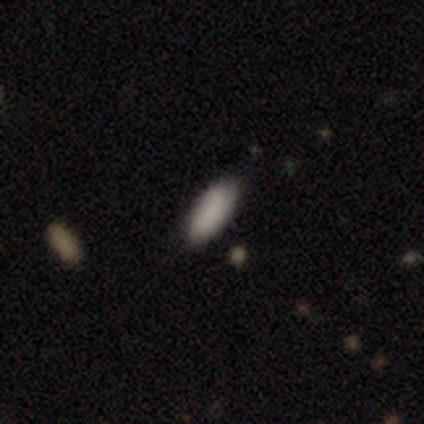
Smooth or featured?
  - smooth: 50% * (tied)
  - star or artifact: 50% * (tied)
  - featured or disk: 0%
How rounded?
  - in between: 100% *
  - round: 0%
  - cigar-shaped: 0%
Merging?
  - none: 100% *
  - minor disturbance: 0%
  - major disturbance: 0%
  - merger: 0%